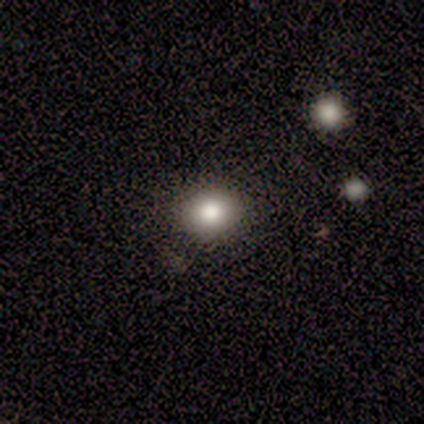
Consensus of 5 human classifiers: A smooth galaxy with no disk features (100%) that is in between round and cigar-shaped (60%).

Vote fractions:
- Smooth or featured? smooth: 100% / featured or disk: 0% / star or artifact: 0%
- How rounded? in between: 60% / round: 40% / cigar-shaped: 0%
- Merging? none: 80% / minor disturbance: 20% / major disturbance: 0% / merger: 0%